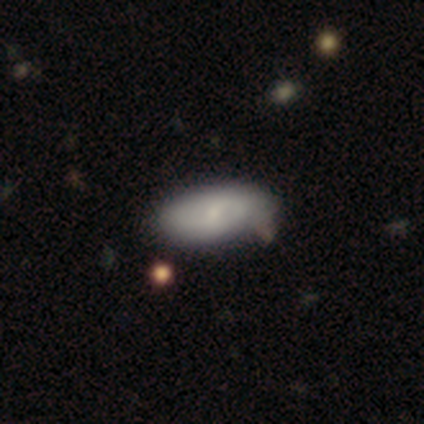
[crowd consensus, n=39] A smooth galaxy with no disk features (56%) that is in between round and cigar-shaped (100%). Merging: none (61%).